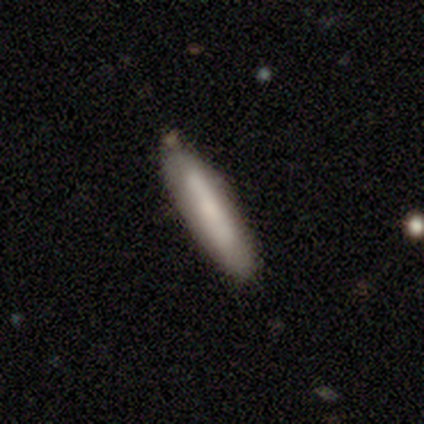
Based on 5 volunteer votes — smooth-or-featured: smooth: 40% (tied) | featured or disk: 40% (tied) | star or artifact: 20%
  how-rounded: cigar-shaped: 100% | round: 0% | in between: 0%
  merging: none: 100% | minor disturbance: 0% | major disturbance: 0% | merger: 0%